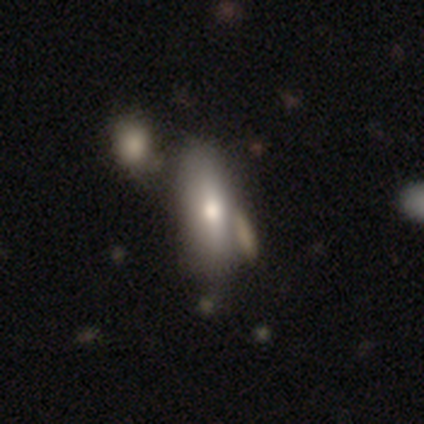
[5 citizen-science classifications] A featured or disk galaxy (40%, tied with star or artifact) viewed edge-on (50%, tied with no) with a rounded central bulge (100%). Merging: merger (67%).